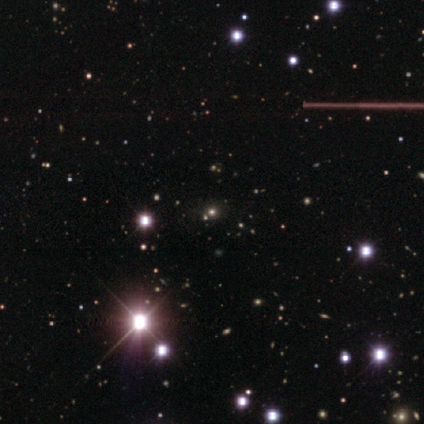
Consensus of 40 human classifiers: smooth_or_featured: star or artifact (p=0.57) [alt: smooth p=0.40]